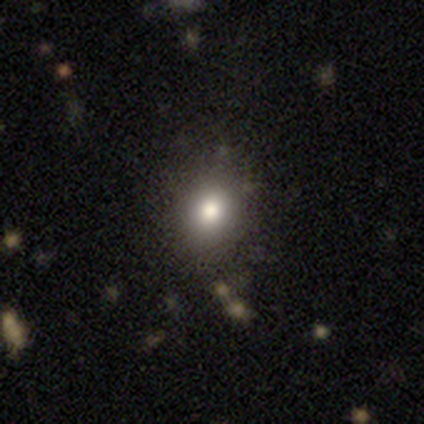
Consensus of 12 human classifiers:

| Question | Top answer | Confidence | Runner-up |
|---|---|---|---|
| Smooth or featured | smooth | 83% | featured or disk (8%) |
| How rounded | round | 60% | in between (40%) |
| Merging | none | 91% | minor disturbance (9%) |